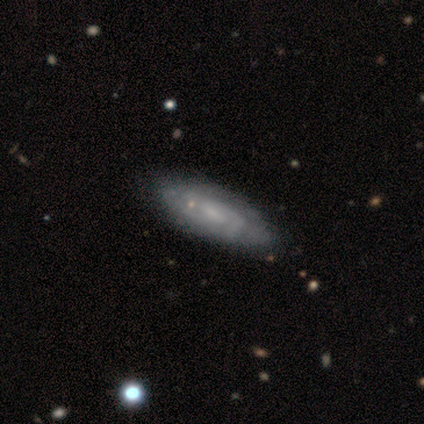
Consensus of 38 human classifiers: Q: Smooth or featured?
A: featured or disk (74%); runner-up: smooth (16%)
Q: Edge-on disk?
A: no (86%); runner-up: yes (14%)
Q: Bar?
A: no (54%); runner-up: weak (46%)
Q: Spiral arms?
A: yes (100%)
Q: Spiral winding?
A: tight (54%); runner-up: medium (33%)
Q: Spiral arm count?
A: 2 (46%); runner-up: can't tell (42%)
Q: Bulge size?
A: small (71%); runner-up: none (29%)
Q: Merging?
A: none (44%); runner-up: minor disturbance (12%)